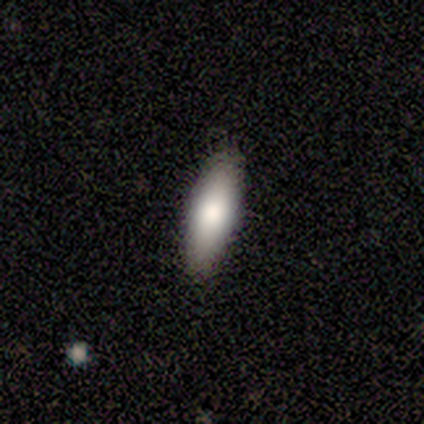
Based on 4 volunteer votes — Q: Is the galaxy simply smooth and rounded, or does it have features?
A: smooth — 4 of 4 (100%).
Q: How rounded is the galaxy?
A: cigar-shaped — 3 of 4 (75%).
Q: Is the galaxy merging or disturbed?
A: none — 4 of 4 (100%).